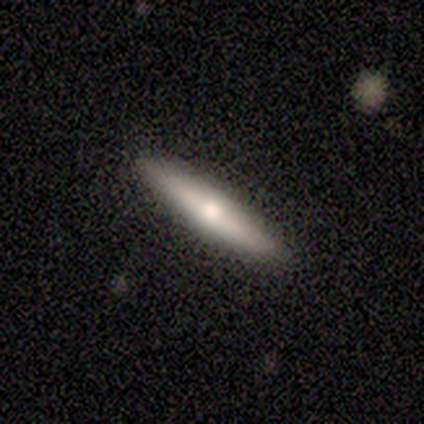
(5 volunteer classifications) Smooth or featured? 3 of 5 (60%) said featured or disk. Edge-on disk? 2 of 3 (67%) said yes. Edge-on bulge? 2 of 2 (100%) said rounded. Merging? 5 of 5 (100%) said none.